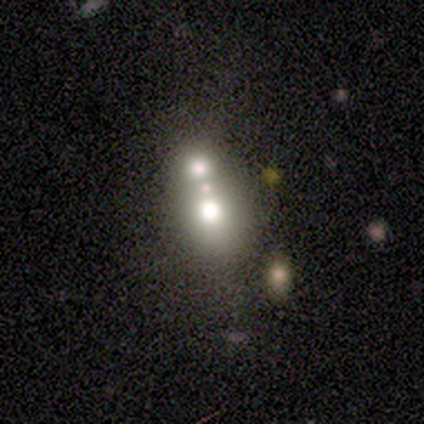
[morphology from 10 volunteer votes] type=smooth (60%); roundness=in between (67%); merging=merger (62%).